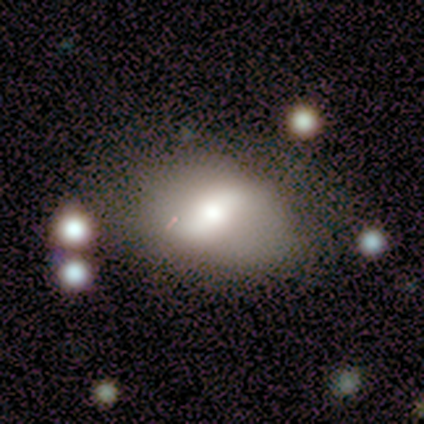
smooth_or_featured: featured or disk (p=0.60) [alt: smooth p=0.20]
disk_edge_on: no (p=1.00)
bar: strong (p=0.33) [tied with: weak p=0.33, no p=0.33]
has_spiral_arms: yes (p=0.67) [alt: no p=0.33]
spiral_winding: medium (p=0.50) [tied with: loose p=0.50]
spiral_arm_count: 2 (p=0.50) [tied with: can't tell p=0.50]
bulge_size: dominant (p=0.33) [tied with: moderate p=0.33, small p=0.33]
merging: none (p=0.50) [alt: minor disturbance p=0.25]